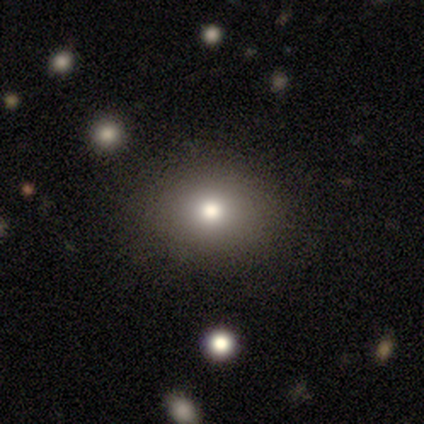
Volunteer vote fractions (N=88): Smooth or featured? 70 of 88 (80%) said smooth. How rounded? 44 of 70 (63%) said round. Merging? 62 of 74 (84%) said none.